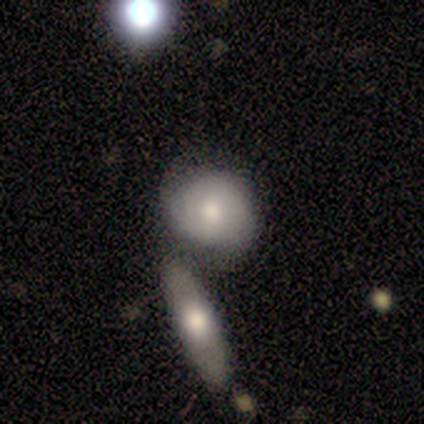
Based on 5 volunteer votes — smooth 60%, featured or disk 20%, star or artifact 20%. Down the decision tree: how rounded — in between (100%); merging — merger (75%).